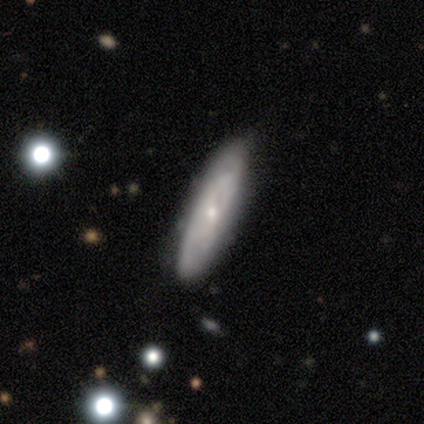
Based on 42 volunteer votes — Morphology: type=featured or disk (62%); edge-on=no (77%); bar=weak (65%); spiral arms=yes (85%); winding=tight (53%); arm count=can't tell (71%); bulge=small (60%); merging=none (79%).